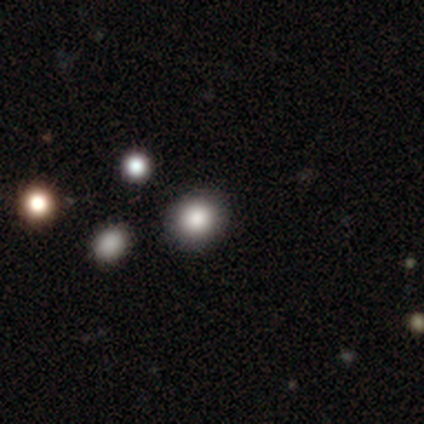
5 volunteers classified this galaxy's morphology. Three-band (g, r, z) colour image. It shows a smooth galaxy with no disk features (100%) that is round (100%). Merging: none (100%).